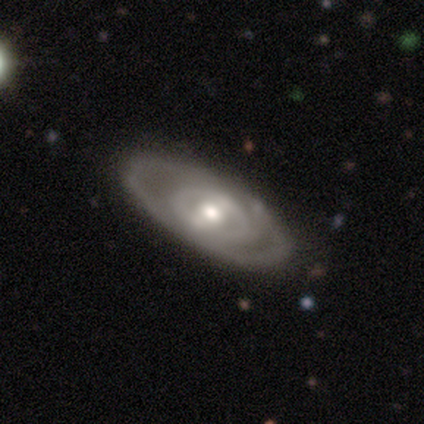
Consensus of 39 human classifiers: smooth-or-featured: featured or disk: 82% | smooth: 13% | star or artifact: 5%
  disk-edge-on: no: 94% | yes: 6%
    bar: no: 47% | weak: 30% | strong: 23%
    has-spiral-arms: no: 73% | yes: 27%
    bulge-size: moderate: 63% | small: 20% | large: 13% | dominant: 3% | none: 0%
  merging: none: 54% | minor disturbance: 8% | major disturbance: 3% | merger: 3%